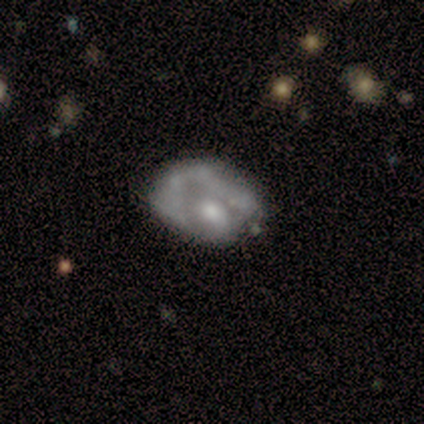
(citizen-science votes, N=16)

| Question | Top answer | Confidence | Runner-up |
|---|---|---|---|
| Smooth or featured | featured or disk | 69% | smooth (31%) |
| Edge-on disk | no | 100% | — |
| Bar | no | 100% | — |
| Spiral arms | no | 91% | yes (9%) |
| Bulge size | moderate | 55% | small (27%) |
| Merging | minor disturbance | 44% | major disturbance (38%) |